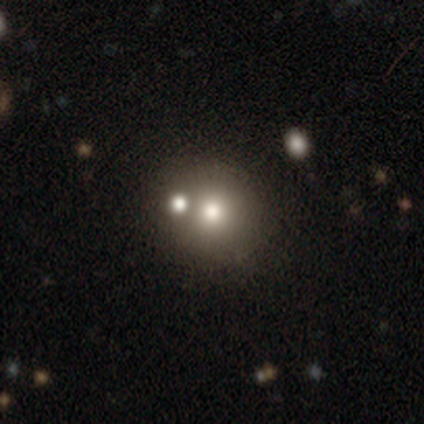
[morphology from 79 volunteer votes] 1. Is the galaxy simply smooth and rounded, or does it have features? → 72% smooth, 15% featured or disk, 13% star or artifact.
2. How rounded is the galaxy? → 81% round, 19% in between, 0% cigar-shaped.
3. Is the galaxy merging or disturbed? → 39% merger, 35% none, 6% minor disturbance, 1% major disturbance.